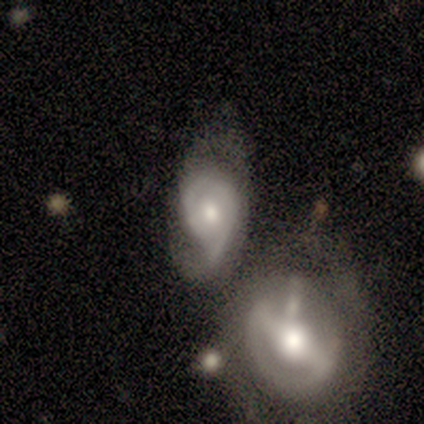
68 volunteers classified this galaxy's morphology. Volunteers were most divided on "spiral winding" (2-way tie): tight: 42%, medium: 42%, loose: 15%. Remaining: edge-on disk — no (96%); bulge size — moderate (72%); smooth or featured — featured or disk (72%); spiral arms — yes (70%); bar — no (57%); spiral arm count — 2 (45%); merging — merger (38%).